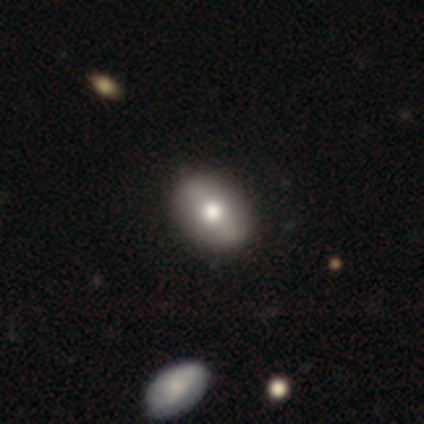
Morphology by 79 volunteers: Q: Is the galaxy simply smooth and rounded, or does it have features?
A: smooth — 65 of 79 (82%).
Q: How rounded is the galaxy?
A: in between — 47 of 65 (72%).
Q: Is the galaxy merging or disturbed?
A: none — 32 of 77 (42%).